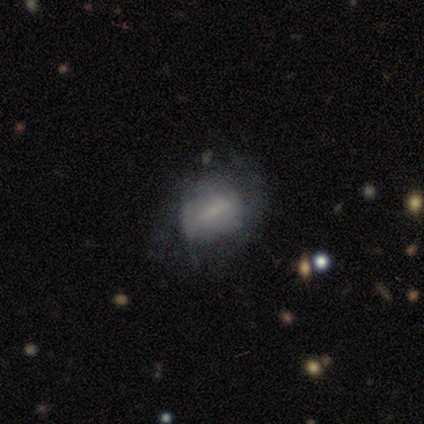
A smooth galaxy with no disk features (50%) that is in between round and cigar-shaped (100%). Merging: none (33%, tied with minor disturbance and major disturbance).